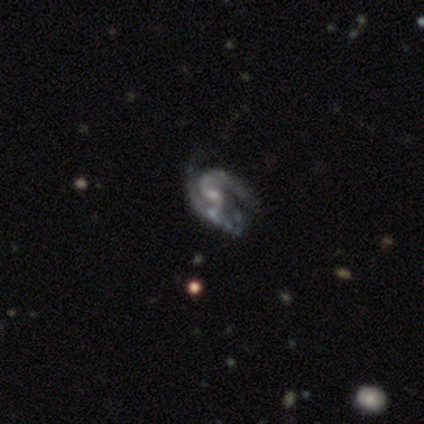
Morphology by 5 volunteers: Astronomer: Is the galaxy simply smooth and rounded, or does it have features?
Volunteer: featured or disk — 60%.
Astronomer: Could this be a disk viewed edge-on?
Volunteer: no — 100%.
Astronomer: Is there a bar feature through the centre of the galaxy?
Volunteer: no — 67%.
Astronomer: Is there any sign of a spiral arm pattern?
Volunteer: yes — 100%.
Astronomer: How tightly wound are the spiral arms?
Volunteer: loose — 67%.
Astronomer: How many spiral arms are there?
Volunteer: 2 — 100%.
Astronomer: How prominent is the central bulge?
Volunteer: small — 67%.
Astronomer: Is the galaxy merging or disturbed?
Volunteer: none — 50%.